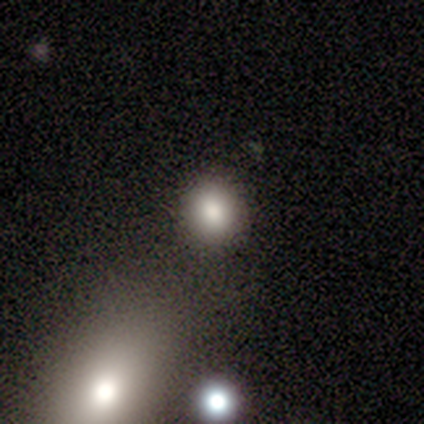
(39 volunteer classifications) Volunteers were most divided on "merging": none: 53%, merger: 13%, major disturbance: 3%, minor disturbance: 0%. More confident: smooth or featured — smooth (90%); how rounded — round (80%).